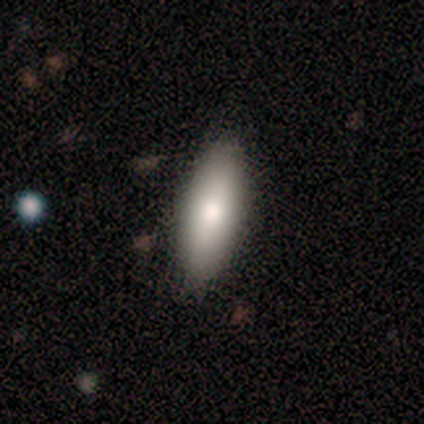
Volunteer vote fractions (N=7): smooth_or_featured: smooth (p=0.71) [alt: featured or disk p=0.29]
how_rounded: in between (p=0.60) [alt: cigar-shaped p=0.40]
merging: none (p=0.86) [alt: minor disturbance p=0.14]